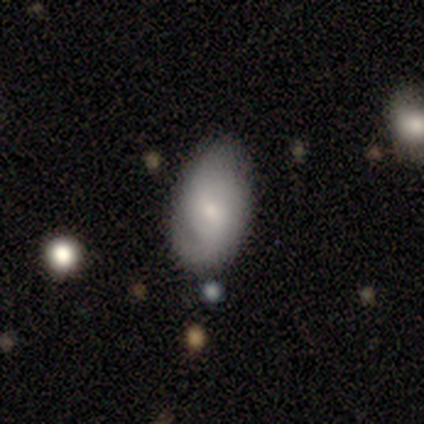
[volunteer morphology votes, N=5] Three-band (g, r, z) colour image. It shows a smooth galaxy with no disk features (40%, tied with featured or disk) that is in between round and cigar-shaped (100%). Merging: none (75%).